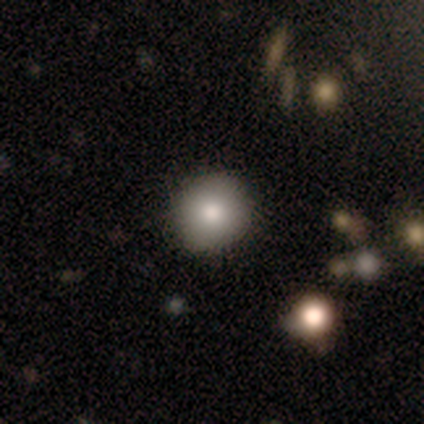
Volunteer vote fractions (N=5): Q: Smooth or featured?
A: smooth (60%); runner-up: featured or disk (20%)
Q: How rounded?
A: round (100%)
Q: Merging?
A: none (75%); runner-up: minor disturbance (25%)